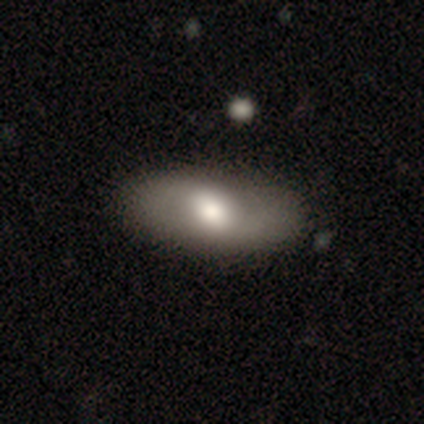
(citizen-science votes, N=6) A smooth galaxy with no disk features (50%, tied with featured or disk) that is in between round and cigar-shaped (67%).

Vote fractions:
- Smooth or featured? smooth: 50% (tied) / featured or disk: 50% (tied) / star or artifact: 0%
- How rounded? in between: 67% / cigar-shaped: 33% / round: 0%
- Merging? none: 100% / minor disturbance: 0% / major disturbance: 0% / merger: 0%